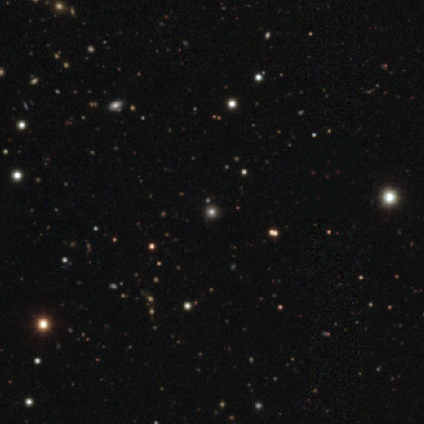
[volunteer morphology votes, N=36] Volunteers were most divided on "smooth or featured": star or artifact: 53%, smooth: 42%, featured or disk: 6%.